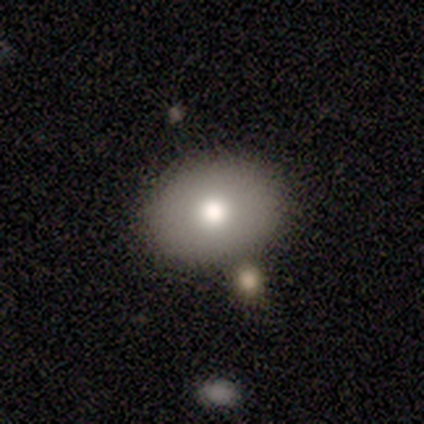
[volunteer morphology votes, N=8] type=smooth (100%); roundness=in between (75%); merging=none (75%).